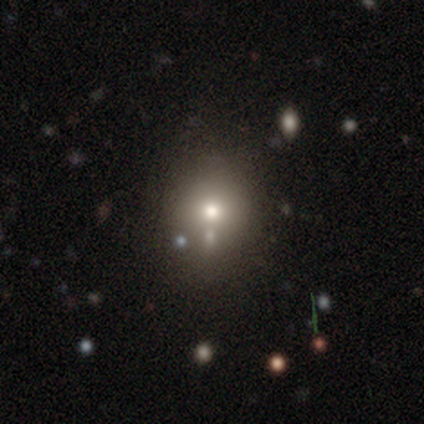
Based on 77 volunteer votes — Smooth or featured: smooth — 77% (featured or disk — 13%)
How rounded: round — 69% (in between — 31%)
Merging: none — 42% (merger — 23%)